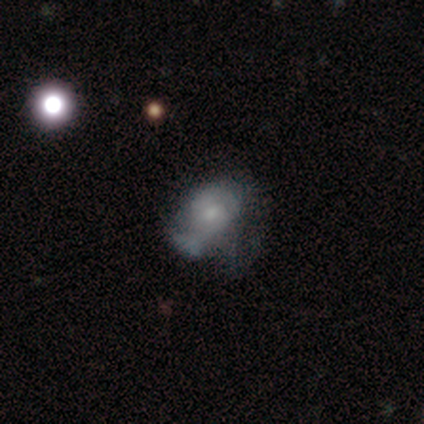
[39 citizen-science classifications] smooth-or-featured: smooth: 49% | featured or disk: 44% | star or artifact: 8%
  how-rounded: in between: 79% | round: 21% | cigar-shaped: 0%
  merging: major disturbance: 50% | none: 31% | minor disturbance: 17% | merger: 3%